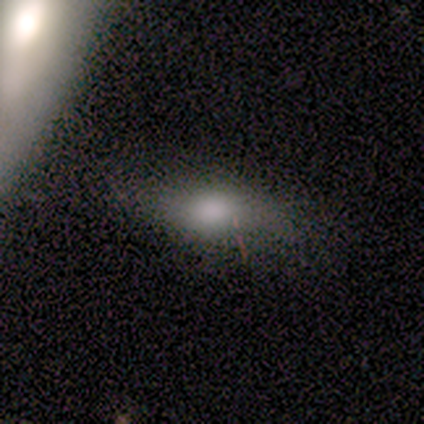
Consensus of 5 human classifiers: Volunteers were most divided on "smooth or featured" (2-way tie): smooth: 40%, star or artifact: 40%, featured or disk: 20%. More confident: how rounded — in between (100%); merging — none (67%).